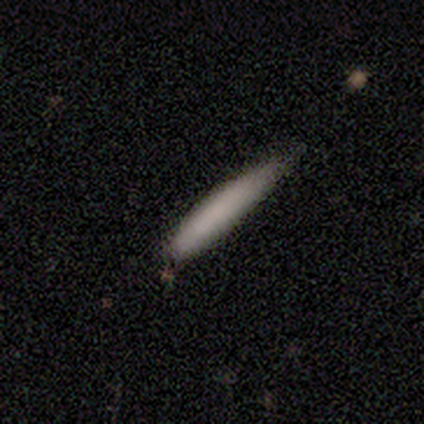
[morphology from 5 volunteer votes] type=smooth (60%); roundness=cigar-shaped (100%); merging=none (100%).